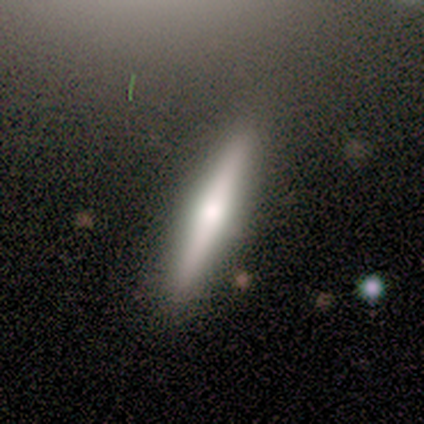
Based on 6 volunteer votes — Q: Smooth or featured?
A: featured or disk (67%); runner-up: smooth (33%)
Q: Edge-on disk?
A: yes (100%)
Q: Edge-on bulge?
A: rounded (100%)
Q: Merging?
A: none (100%)